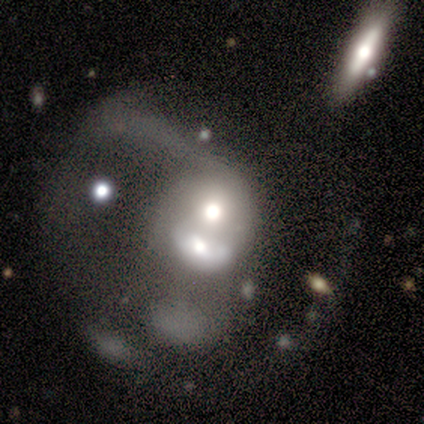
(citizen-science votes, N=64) Smooth or featured?
  - featured or disk: 67% *
  - smooth: 30%
  - star or artifact: 3%
Edge-on disk?
  - no: 93% *
  - yes: 7%
Bar?
  - no: 95% *
  - weak: 5%
  - strong: 0%
Spiral arms?
  - no: 88% *
  - yes: 12%
Bulge size?
  - moderate: 70% *
  - large: 22%
  - dominant: 2%
  - small: 2%
  - none: 2%
Merging?
  - merger: 56% *
  - major disturbance: 29%
  - none: 5%
  - minor disturbance: 2%